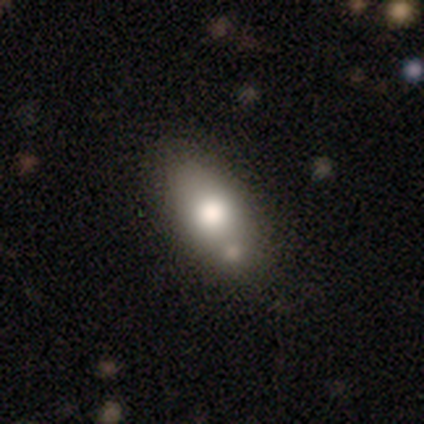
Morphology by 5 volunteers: Smooth or featured: smooth — 80% (star or artifact — 20%)
How rounded: in between — 100%
Merging: none — 50% (tied with minor disturbance — 50%)